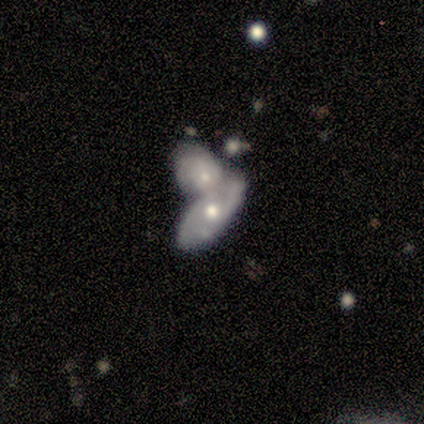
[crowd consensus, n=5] A smooth galaxy with no disk features (60%) that is in between round and cigar-shaped (100%).

Vote fractions:
- Smooth or featured? smooth: 60% / featured or disk: 40% / star or artifact: 0%
- How rounded? in between: 100% / round: 0% / cigar-shaped: 0%
- Merging? merger: 80% / none: 20% / minor disturbance: 0% / major disturbance: 0%